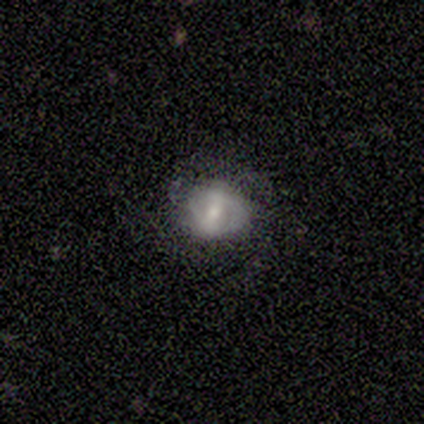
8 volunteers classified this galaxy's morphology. A featured or disk galaxy (62%) with a weak bar (60%), 2 (67%) medium (67%) spiral arms (60%) and a small central bulge (80%).

Vote fractions:
- Smooth or featured? featured or disk: 62% / smooth: 38% / star or artifact: 0%
- Edge-on disk? no: 100% / yes: 0%
- Bar? weak: 60% / strong: 20% / no: 20%
- Spiral arms? yes: 60% / no: 40%
- Spiral winding? medium: 67% / tight: 33% / loose: 0%
- Spiral arm count? 2: 67% / can't tell: 33% / 1: 0% / 3: 0% / 4: 0% / more than 4: 0%
- Bulge size? small: 80% / moderate: 20% / dominant: 0% / large: 0% / none: 0%
- Merging? none: 62% / major disturbance: 25% / minor disturbance: 12% / merger: 0%